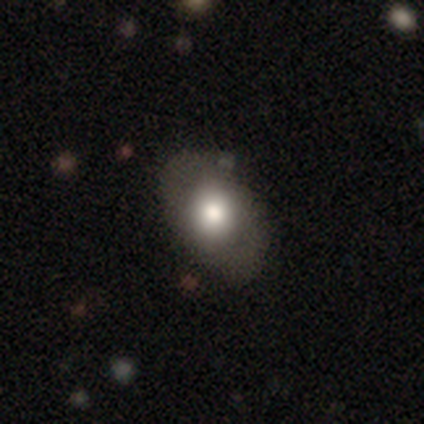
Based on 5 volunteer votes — smooth_or_featured: smooth (p=0.60) [alt: featured or disk p=0.20]
how_rounded: in between (p=0.67) [alt: round p=0.33]
merging: none (p=0.50) [tied with: minor disturbance p=0.50]